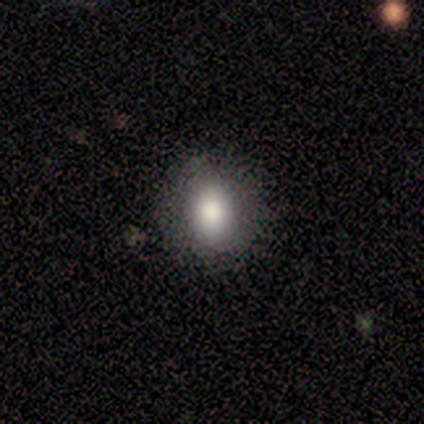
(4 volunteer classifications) Smooth or featured? smooth (75%)
How rounded? in between (67%)
Merging? none (75%)